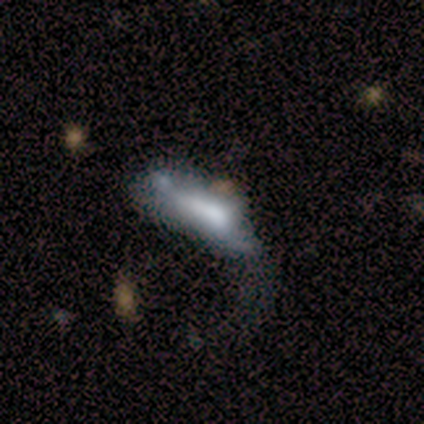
Q: Smooth or featured?
A: smooth (80%); runner-up: star or artifact (20%)
Q: How rounded?
A: in between (50%); tied with: cigar-shaped (50%)
Q: Merging?
A: minor disturbance (75%); runner-up: merger (25%)